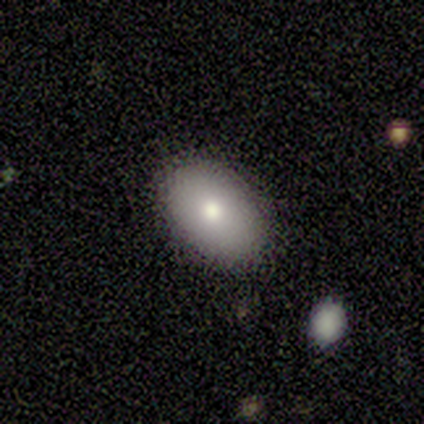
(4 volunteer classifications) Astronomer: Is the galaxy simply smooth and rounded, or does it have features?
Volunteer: smooth — 100%.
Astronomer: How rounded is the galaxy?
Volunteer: in between — 100%.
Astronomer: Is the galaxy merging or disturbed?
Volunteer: none — 75%.